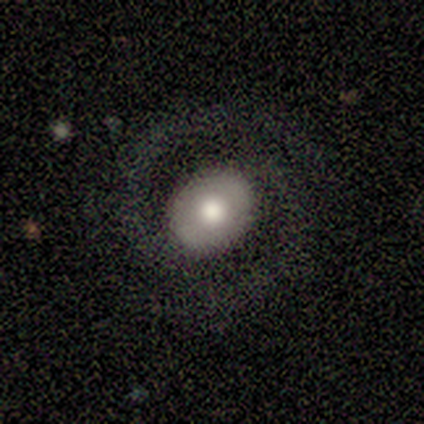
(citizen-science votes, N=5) Q: Smooth or featured?
A: featured or disk (60%); runner-up: smooth (40%)
Q: Edge-on disk?
A: no (100%)
Q: Bar?
A: weak (67%); runner-up: no (33%)
Q: Spiral arms?
A: yes (100%)
Q: Spiral winding?
A: medium (100%)
Q: Spiral arm count?
A: 2 (100%)
Q: Bulge size?
A: large (67%); runner-up: moderate (33%)
Q: Merging?
A: none (60%); runner-up: minor disturbance (20%)